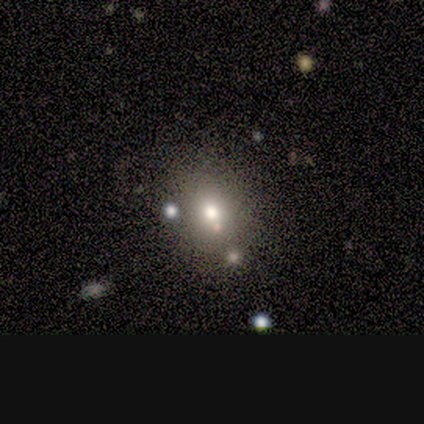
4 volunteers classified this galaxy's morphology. A smooth galaxy with no disk features (50%) that is round (50%, tied with in between).

Vote fractions:
- Smooth or featured? smooth: 50% / featured or disk: 25% / star or artifact: 25%
- How rounded? round: 50% (tied) / in between: 50% (tied) / cigar-shaped: 0%
- Merging? none: 67% / merger: 33% / minor disturbance: 0% / major disturbance: 0%